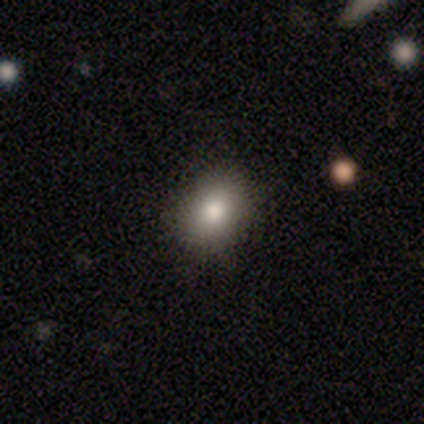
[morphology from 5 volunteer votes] smooth-or-featured: smooth: 80% | star or artifact: 20% | featured or disk: 0%
  how-rounded: round: 50% (tied) | in between: 50% (tied) | cigar-shaped: 0%
  merging: none: 100% | minor disturbance: 0% | major disturbance: 0% | merger: 0%